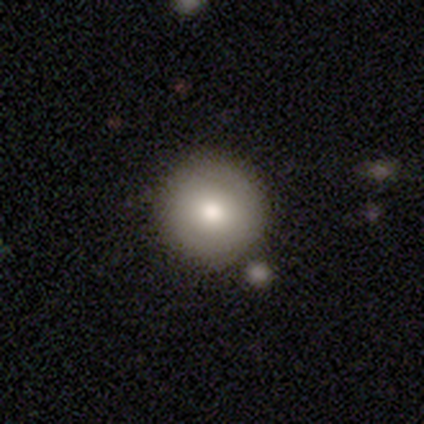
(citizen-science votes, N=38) A smooth galaxy with no disk features (74%) that is round (100%).

Vote fractions:
- Smooth or featured? smooth: 74% / featured or disk: 16% / star or artifact: 11%
- How rounded? round: 100% / in between: 0% / cigar-shaped: 0%
- Merging? none: 71% / merger: 15% / minor disturbance: 12% / major disturbance: 3%